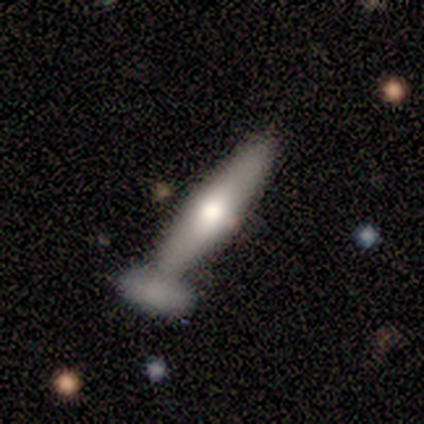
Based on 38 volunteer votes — A smooth galaxy with no disk features (55%) that is cigar-shaped (71%). Merging: merger (49%).